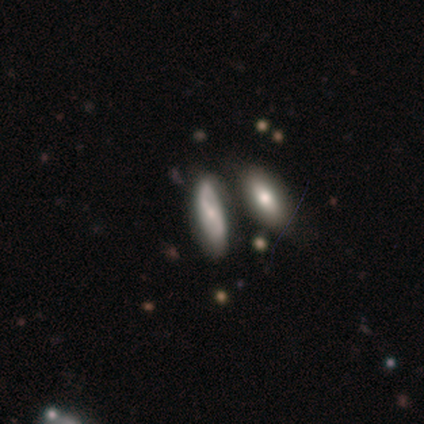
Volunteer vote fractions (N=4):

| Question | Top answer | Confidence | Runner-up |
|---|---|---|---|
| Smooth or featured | featured or disk | 75% | star or artifact (25%) |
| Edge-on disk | yes | 100% | — |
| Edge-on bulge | rounded | 100% | — |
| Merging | none | 67% | merger (33%) |